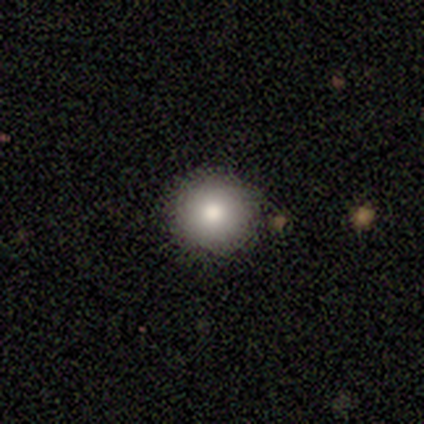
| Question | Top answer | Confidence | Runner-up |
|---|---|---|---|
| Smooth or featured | smooth | 86% | star or artifact (14%) |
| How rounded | round | 100% | — |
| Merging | none | 83% | minor disturbance (17%) |